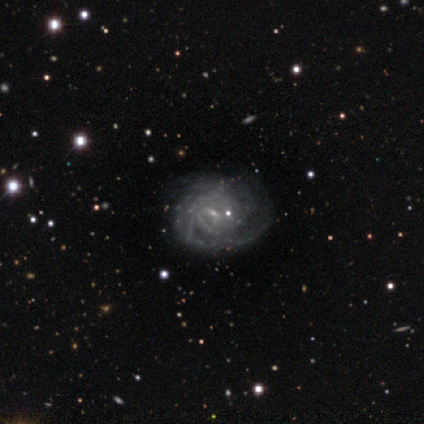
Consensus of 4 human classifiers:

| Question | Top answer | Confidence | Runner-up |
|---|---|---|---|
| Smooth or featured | featured or disk | 100% | — |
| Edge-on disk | no | 100% | — |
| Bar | weak | 50% | tied: no (50%) |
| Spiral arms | yes | 100% | — |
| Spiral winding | tight | 50% | medium (25%) |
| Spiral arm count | can't tell | 50% | 4 (25%) |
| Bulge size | small | 50% | tied: none (50%) |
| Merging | none | 50% | minor disturbance (25%) |